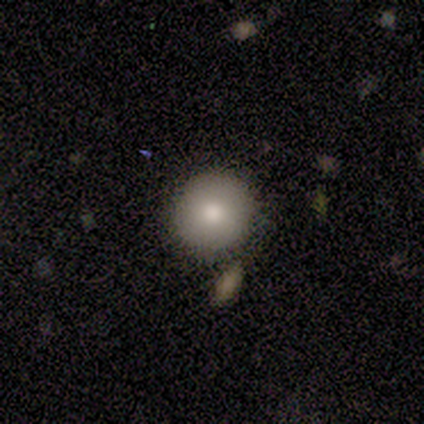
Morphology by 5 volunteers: type=smooth (100%); roundness=round (100%); merging=none (100%).